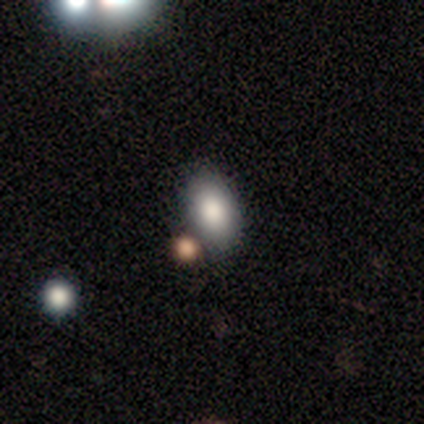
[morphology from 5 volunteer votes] Q: Smooth or featured?
A: smooth (80%); runner-up: star or artifact (20%)
Q: How rounded?
A: in between (75%); runner-up: round (25%)
Q: Merging?
A: none (75%); runner-up: merger (25%)